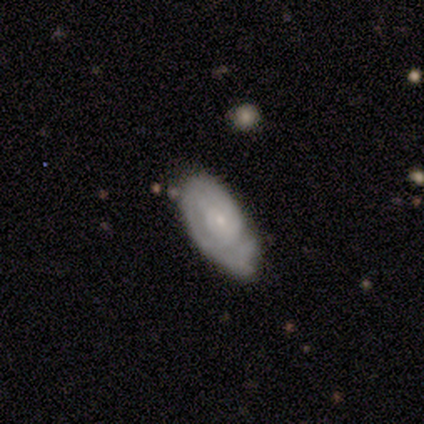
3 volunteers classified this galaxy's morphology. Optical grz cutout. It shows a featured or disk galaxy (67%) with no bar (100%), 3 (50%, tied with more than 4) tight (50%, tied with medium) spiral arms (100%) and a small central bulge (100%). Merging: none (100%).